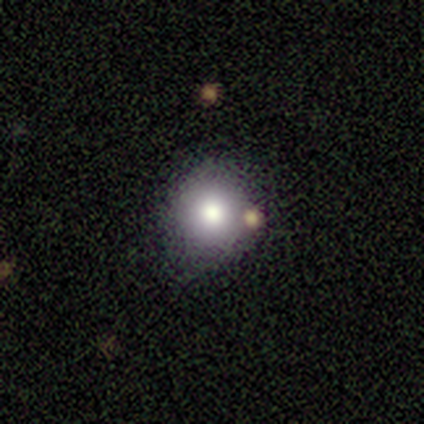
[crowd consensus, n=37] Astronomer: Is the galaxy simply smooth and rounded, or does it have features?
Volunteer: smooth — 65%.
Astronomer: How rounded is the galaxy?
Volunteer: round — 92%.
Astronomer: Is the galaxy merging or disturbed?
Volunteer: none — 84%.